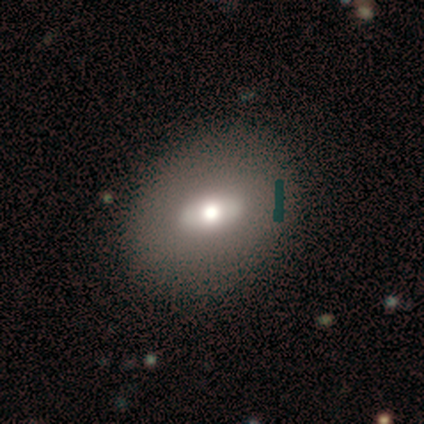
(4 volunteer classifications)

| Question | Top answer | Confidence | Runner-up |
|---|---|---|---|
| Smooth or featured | featured or disk | 50% | smooth (25%) |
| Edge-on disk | no | 100% | — |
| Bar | no | 100% | — |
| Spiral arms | no | 100% | — |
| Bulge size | moderate | 100% | — |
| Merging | none | 100% | — |